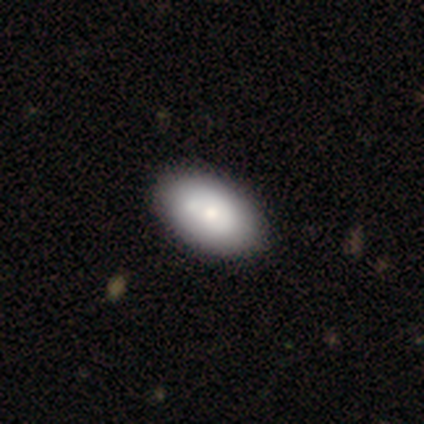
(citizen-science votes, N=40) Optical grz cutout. It shows a smooth galaxy with no disk features (72%) that is in between round and cigar-shaped (90%). Merging: none (49%).